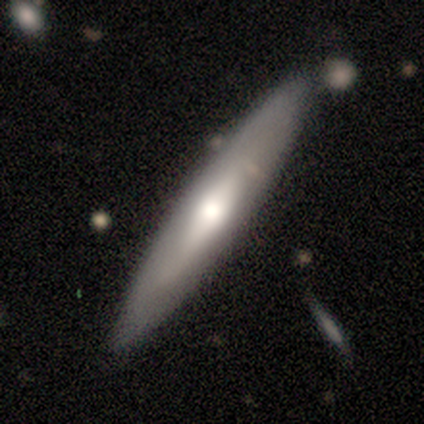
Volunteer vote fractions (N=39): Smooth or featured?
  - smooth: 64% *
  - featured or disk: 31%
  - star or artifact: 5%
How rounded?
  - cigar-shaped: 92% *
  - in between: 8%
  - round: 0%
Merging?
  - none: 86% *
  - minor disturbance: 8%
  - major disturbance: 3%
  - merger: 3%